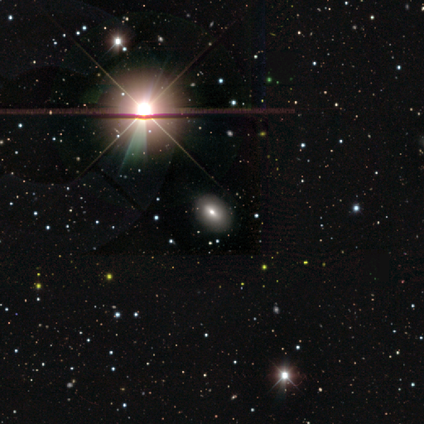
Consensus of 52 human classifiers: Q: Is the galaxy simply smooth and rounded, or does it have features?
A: star or artifact — 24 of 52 (46%).